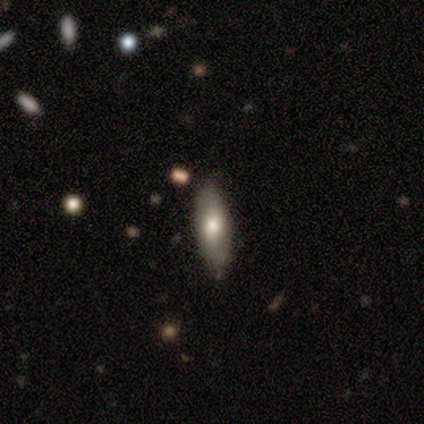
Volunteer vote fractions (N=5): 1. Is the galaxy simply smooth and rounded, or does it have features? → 60% smooth, 40% featured or disk, 0% star or artifact.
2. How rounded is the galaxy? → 67% in between, 33% cigar-shaped, 0% round.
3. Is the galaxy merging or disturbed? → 80% none, 20% minor disturbance, 0% major disturbance, 0% merger.